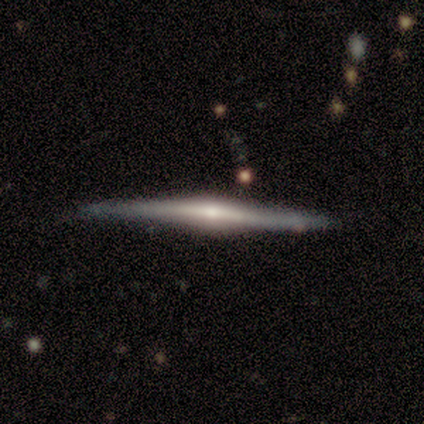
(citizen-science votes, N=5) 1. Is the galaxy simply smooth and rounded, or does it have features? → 80% featured or disk, 20% star or artifact, 0% smooth.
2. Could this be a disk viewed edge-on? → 100% yes, 0% no.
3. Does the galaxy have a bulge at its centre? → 50% none (tied), 50% rounded (tied), 0% boxy.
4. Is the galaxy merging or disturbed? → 100% none, 0% minor disturbance, 0% major disturbance, 0% merger.